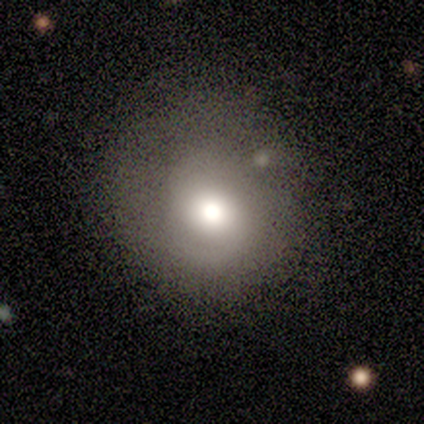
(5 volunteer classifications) Morphology: type=smooth (40%, tied with featured or disk); roundness=round (100%); merging=none (50%).